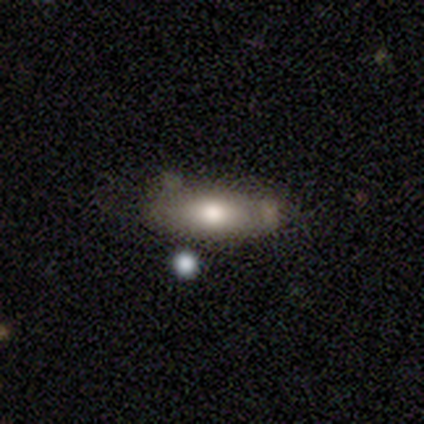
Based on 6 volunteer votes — smooth_or_featured: smooth (p=0.67) [alt: featured or disk p=0.33]
how_rounded: in between (p=0.50) [tied with: cigar-shaped p=0.50]
merging: none (p=0.50) [alt: merger p=0.33]